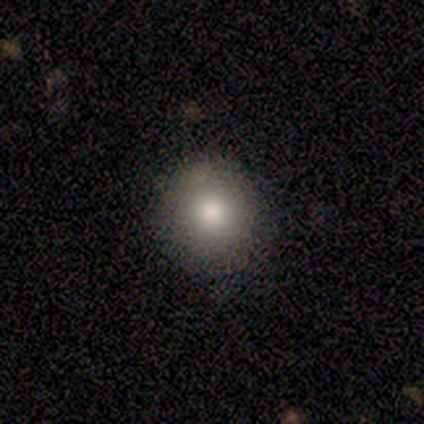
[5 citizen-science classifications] This is clearly a smooth galaxy (80%). How rounded: clearly round (100%). Merging: clearly none (100%).